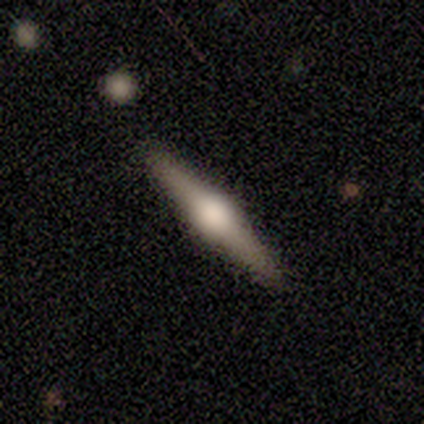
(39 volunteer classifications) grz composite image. It shows a featured or disk galaxy (79%) viewed edge-on (97%) with a rounded central bulge (90%). Merging: none (95%).